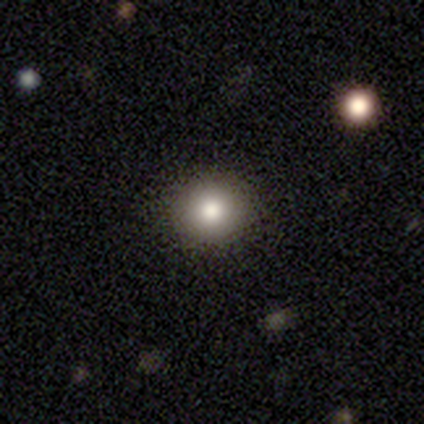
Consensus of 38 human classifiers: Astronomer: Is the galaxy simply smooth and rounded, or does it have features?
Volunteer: smooth — 71%.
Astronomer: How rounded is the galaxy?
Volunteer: round — 93%.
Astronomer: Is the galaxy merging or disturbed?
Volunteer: none — 87%.